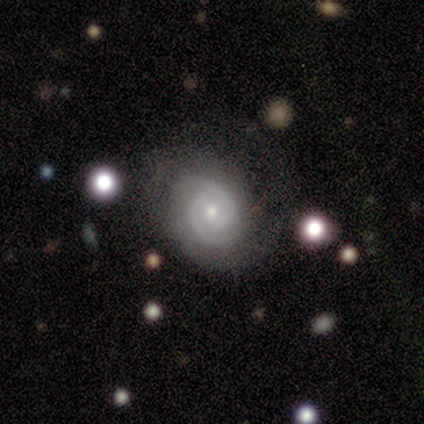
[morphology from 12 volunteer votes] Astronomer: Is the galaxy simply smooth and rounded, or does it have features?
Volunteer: featured or disk — 92%.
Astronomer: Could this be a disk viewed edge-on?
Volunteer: no — 100%.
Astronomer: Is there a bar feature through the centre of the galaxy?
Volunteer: no — 64%.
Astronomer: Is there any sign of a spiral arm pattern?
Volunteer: yes — 100%.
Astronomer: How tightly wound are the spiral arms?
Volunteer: medium — 55% (runner-up: tight, 36%).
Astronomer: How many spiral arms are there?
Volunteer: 2 — 91%.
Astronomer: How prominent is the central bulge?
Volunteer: small — 64%.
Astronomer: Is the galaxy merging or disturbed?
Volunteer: none — 50% (runner-up: minor disturbance, 42%).